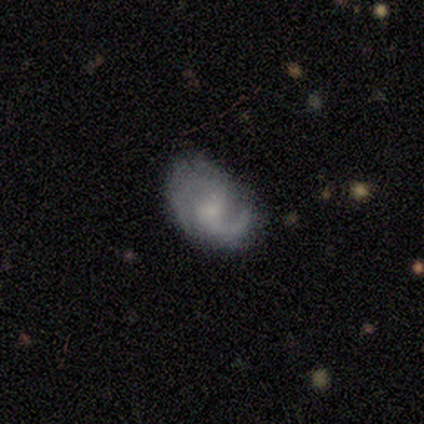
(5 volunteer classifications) A featured or disk galaxy (80%) with no bar (100%), 2 (67%) medium (67%) spiral arms (75%) and a moderate central bulge (50%).

Vote fractions:
- Smooth or featured? featured or disk: 80% / smooth: 20% / star or artifact: 0%
- Edge-on disk? no: 100% / yes: 0%
- Bar? no: 100% / strong: 0% / weak: 0%
- Spiral arms? yes: 75% / no: 25%
- Spiral winding? medium: 67% / tight: 33% / loose: 0%
- Spiral arm count? 2: 67% / can't tell: 33% / 1: 0% / 3: 0% / 4: 0% / more than 4: 0%
- Bulge size? moderate: 50% / small: 25% / none: 25% / dominant: 0% / large: 0%
- Merging? none: 60% / minor disturbance: 40% / major disturbance: 0% / merger: 0%